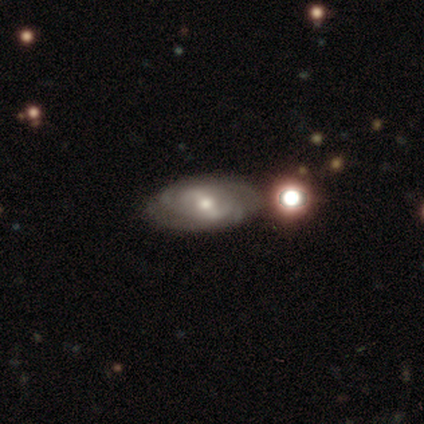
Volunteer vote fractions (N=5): Volunteers were most divided on "smooth or featured" (2-way tie): featured or disk: 40%, star or artifact: 40%, smooth: 20%; "bar" (2-way tie): strong: 50%, weak: 50%, no: 0%; "spiral winding" (2-way tie): tight: 50%, medium: 50%, loose: 0%. More confident: edge-on disk — no (100%); spiral arms — yes (100%); spiral arm count — 2 (100%); bulge size — moderate (100%); merging — none (100%).